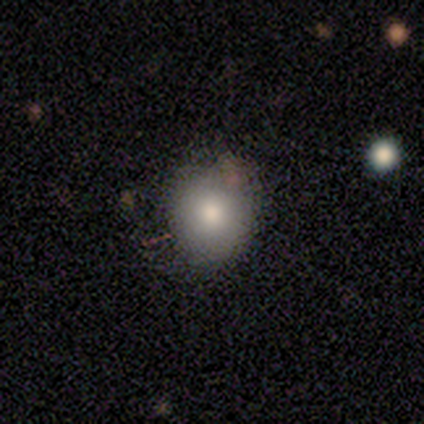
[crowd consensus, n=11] smooth 82%, featured or disk 9%, star or artifact 9%. Down the decision tree: how rounded — round (78%); merging — none (60%).